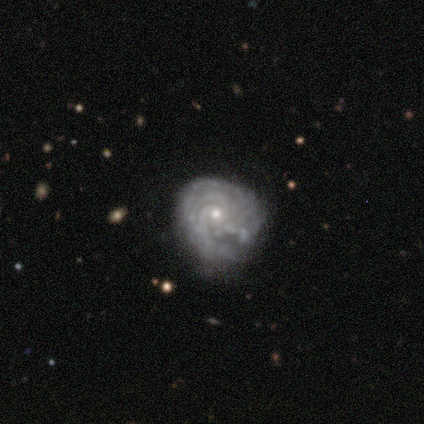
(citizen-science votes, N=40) Smooth or featured? featured or disk (82%)
Edge-on disk? no (100%)
Bar? no (91%)
Spiral arms? yes (97%)
Spiral winding? tight (94%)
Spiral arm count? can't tell (34%)
Bulge size? small (61%)
Merging? minor disturbance (41%)